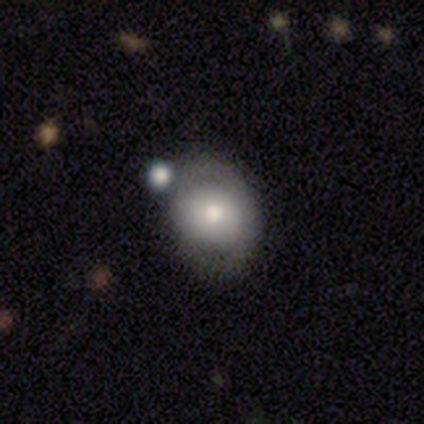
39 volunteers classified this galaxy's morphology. Smooth or featured? smooth (69%)
How rounded? in between (52%)
Merging? none (46%, tied with minor disturbance)